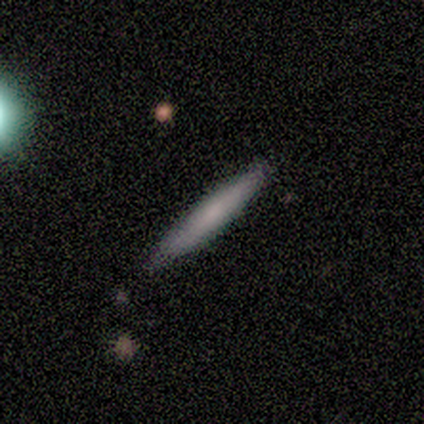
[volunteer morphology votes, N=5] Smooth or featured?
  - smooth: 80% *
  - featured or disk: 20%
  - star or artifact: 0%
How rounded?
  - cigar-shaped: 100% *
  - round: 0%
  - in between: 0%
Merging?
  - none: 100% *
  - minor disturbance: 0%
  - major disturbance: 0%
  - merger: 0%